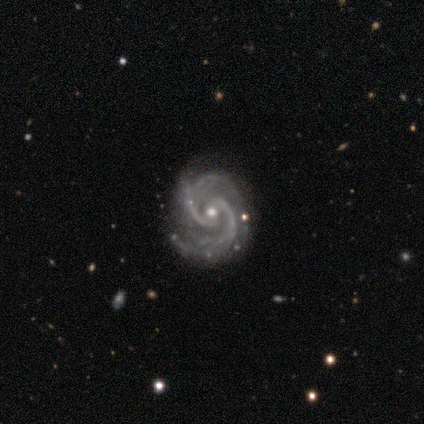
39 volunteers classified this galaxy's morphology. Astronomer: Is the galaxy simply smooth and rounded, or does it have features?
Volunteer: featured or disk — 97%.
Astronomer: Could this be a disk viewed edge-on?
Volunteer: no — 95%.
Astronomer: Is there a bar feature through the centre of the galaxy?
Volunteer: no — 50% (runner-up: weak, 36%).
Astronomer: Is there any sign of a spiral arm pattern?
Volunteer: yes — 97%.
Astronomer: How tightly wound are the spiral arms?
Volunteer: tight — 57% (runner-up: medium, 37%).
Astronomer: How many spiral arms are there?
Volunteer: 2 — 66%.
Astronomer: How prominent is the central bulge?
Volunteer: small — 58% (runner-up: moderate, 39%).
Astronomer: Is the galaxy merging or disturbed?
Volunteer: none — 85%.